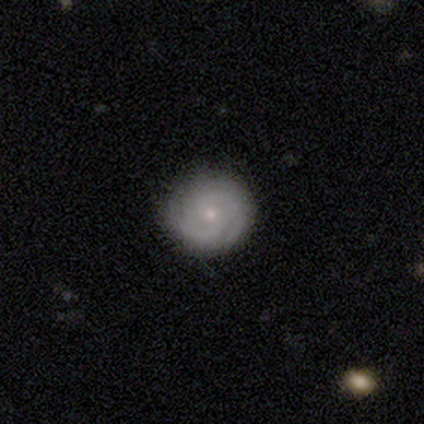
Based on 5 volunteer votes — Q: Smooth or featured?
A: featured or disk (100%)
Q: Edge-on disk?
A: no (100%)
Q: Bar?
A: no (60%); runner-up: weak (40%)
Q: Spiral arms?
A: yes (100%)
Q: Spiral winding?
A: tight (80%); runner-up: medium (20%)
Q: Spiral arm count?
A: 2 (60%); runner-up: can't tell (40%)
Q: Bulge size?
A: small (60%); runner-up: moderate (40%)
Q: Merging?
A: none (100%)